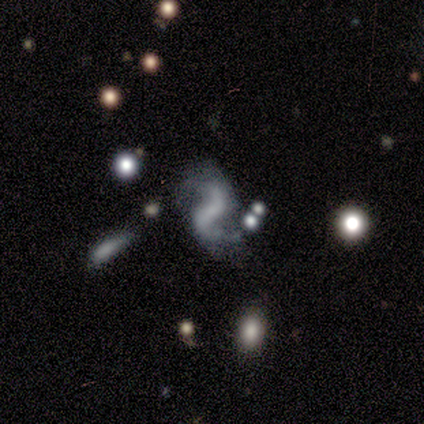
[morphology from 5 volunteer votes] Smooth or featured?
  - featured or disk: 80% *
  - star or artifact: 20%
  - smooth: 0%
Edge-on disk?
  - no: 100% *
  - yes: 0%
Bar?
  - strong: 75% *
  - no: 25%
  - weak: 0%
Spiral arms?
  - yes: 75% *
  - no: 25%
Spiral winding?
  - loose: 100% *
  - tight: 0%
  - medium: 0%
Spiral arm count?
  - 2: 100% *
  - 1: 0%
  - 3: 0%
  - 4: 0%
  - more than 4: 0%
  - can't tell: 0%
Bulge size?
  - small: 75% *
  - none: 25%
  - dominant: 0%
  - large: 0%
  - moderate: 0%
Merging?
  - none: 25% * (tied)
  - minor disturbance: 25% * (tied)
  - major disturbance: 25% * (tied)
  - merger: 25% * (tied)